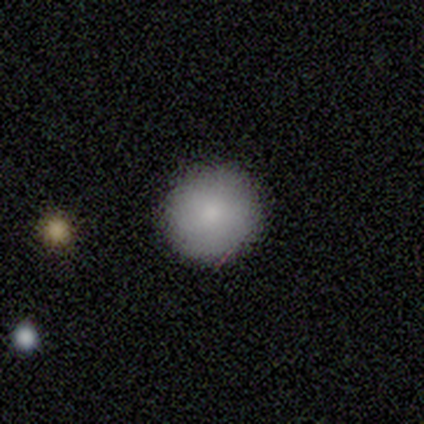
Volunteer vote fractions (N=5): smooth 80%, star or artifact 20%, featured or disk 0%. Down the decision tree: how rounded — round (100%); merging — none (100%).